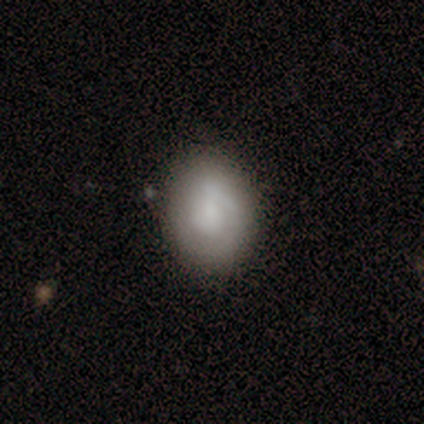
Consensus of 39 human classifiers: Volunteers were most divided on "smooth or featured": smooth: 44%, featured or disk: 41%, star or artifact: 15%. More confident: merging — none (82%); how rounded — round (59%).